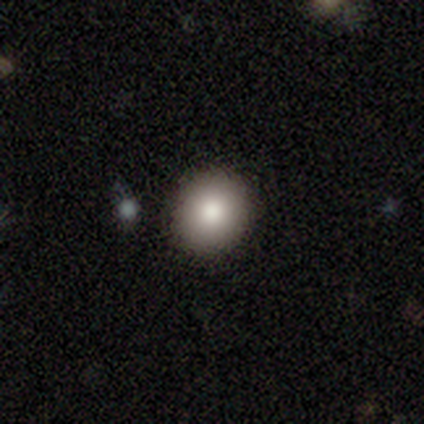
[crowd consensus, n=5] Smooth or featured? 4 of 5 (80%) said smooth. How rounded? 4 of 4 (100%) said round. Merging? 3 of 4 (75%) said none.